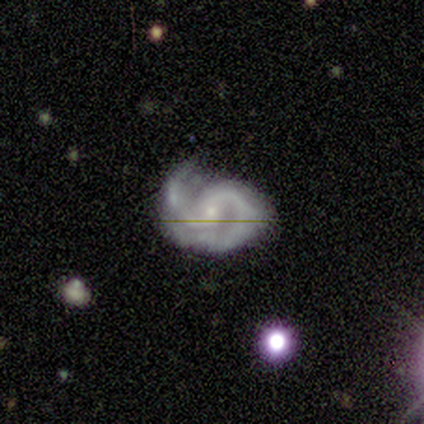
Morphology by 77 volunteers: This appears to be a featured or disk galaxy (95%) with no bar (62%), 2 (89%) medium (61%) spiral arms (97%) and a small central bulge (76%). Merging: none (43%).